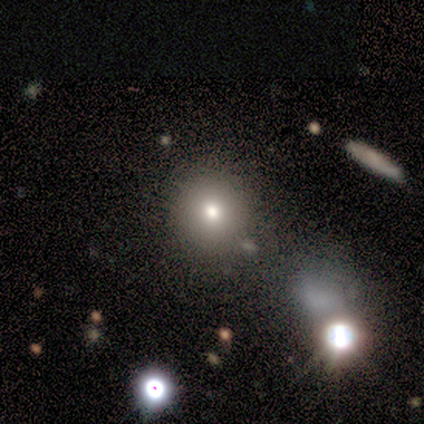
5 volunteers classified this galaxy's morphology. Volunteers were most divided on "smooth or featured": smooth: 80%, featured or disk: 20%, star or artifact: 0%. More confident: how rounded — round (100%); merging — none (100%).